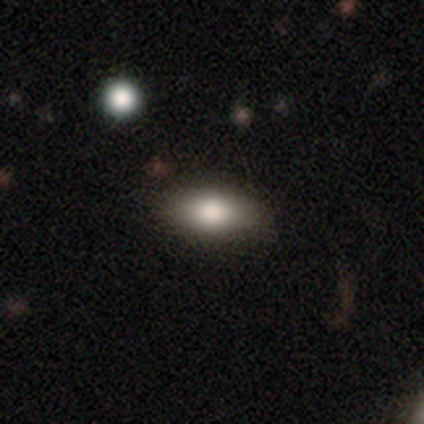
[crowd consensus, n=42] A smooth galaxy with no disk features (81%) that is in between round and cigar-shaped (79%).

Vote fractions:
- Smooth or featured? smooth: 81% / featured or disk: 12% / star or artifact: 7%
- How rounded? in between: 79% / cigar-shaped: 21% / round: 0%
- Merging? none: 82% / minor disturbance: 13% / major disturbance: 3% / merger: 3%